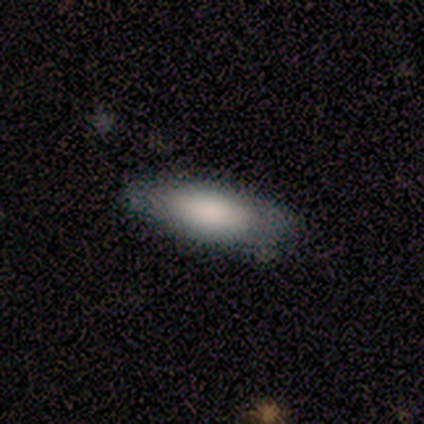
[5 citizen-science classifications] Smooth or featured?
  - smooth: 80% *
  - featured or disk: 20%
  - star or artifact: 0%
How rounded?
  - in between: 100% *
  - round: 0%
  - cigar-shaped: 0%
Merging?
  - none: 60% *
  - minor disturbance: 20%
  - merger: 20%
  - major disturbance: 0%